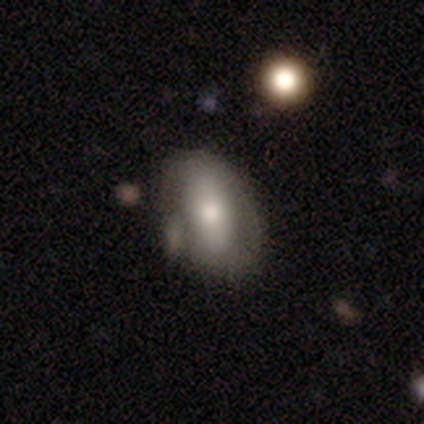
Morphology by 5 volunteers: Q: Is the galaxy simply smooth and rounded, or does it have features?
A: featured or disk — 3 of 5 (60%).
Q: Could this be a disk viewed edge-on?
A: no — 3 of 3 (100%).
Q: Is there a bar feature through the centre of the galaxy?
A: strong — 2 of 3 (67%).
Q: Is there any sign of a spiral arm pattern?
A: no — 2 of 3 (67%).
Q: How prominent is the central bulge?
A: dominant — 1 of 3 (33%, tied with large and moderate).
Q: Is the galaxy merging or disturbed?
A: none — 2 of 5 (40%, tied with minor disturbance).